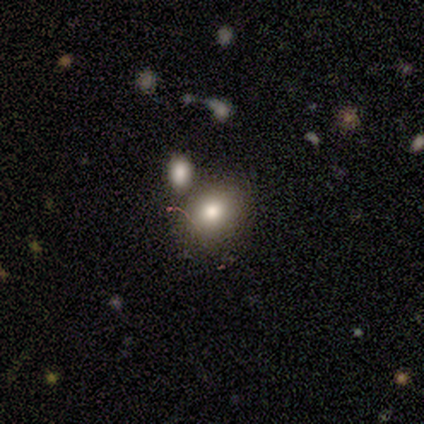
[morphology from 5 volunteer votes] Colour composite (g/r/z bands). It shows a smooth galaxy with no disk features (60%) that is round (100%). Merging: none (33%, tied with minor disturbance and merger).